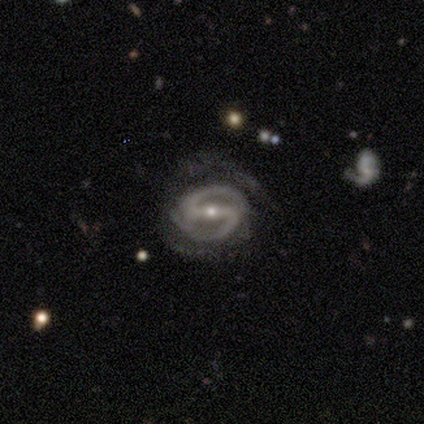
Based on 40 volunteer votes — Smooth or featured?
  - featured or disk: 90% *
  - smooth: 5%
  - star or artifact: 5%
Edge-on disk?
  - no: 97% *
  - yes: 3%
Bar?
  - strong: 83% *
  - weak: 14%
  - no: 3%
Spiral arms?
  - yes: 94% *
  - no: 6%
Spiral winding?
  - tight: 64% *
  - medium: 24%
  - loose: 12%
Spiral arm count?
  - 2: 91% *
  - 1: 3%
  - 3: 3%
  - 4: 3%
  - more than 4: 0%
  - can't tell: 0%
Bulge size?
  - small: 71% *
  - moderate: 26%
  - large: 3%
  - dominant: 0%
  - none: 0%
Merging?
  - none: 68% *
  - minor disturbance: 16%
  - major disturbance: 16%
  - merger: 0%